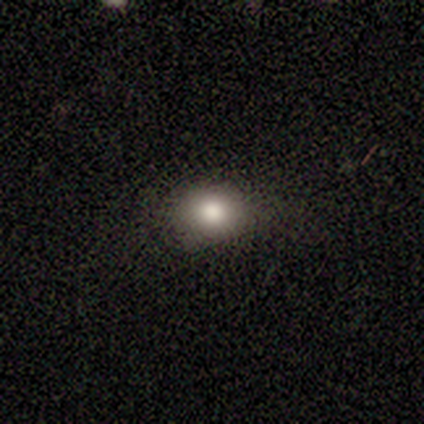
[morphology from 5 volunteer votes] Smooth or featured: smooth — 60% (featured or disk — 20%)
How rounded: round — 100%
Merging: none — 75% (minor disturbance — 25%)